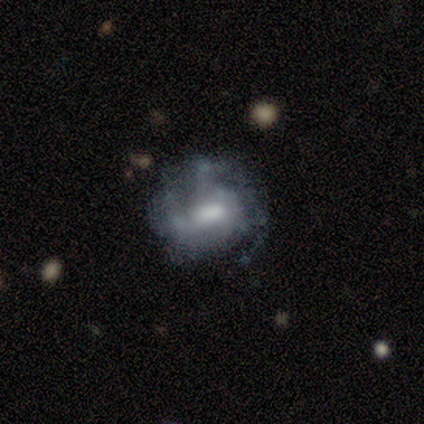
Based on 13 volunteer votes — smooth-or-featured: featured or disk: 62% | smooth: 38% | star or artifact: 0%
  disk-edge-on: no: 100% | yes: 0%
    bar: weak: 62% | strong: 25% | no: 12%
    has-spiral-arms: yes: 50% (tied) | no: 50% (tied)
      spiral-winding: medium: 75% | tight: 25% | loose: 0%
      spiral-arm-count: can't tell: 75% | 3: 25% | 1: 0% | 2: 0% | 4: 0% | more than 4: 0%
    bulge-size: large: 38% (tied) | moderate: 38% (tied) | small: 12% | none: 12% | dominant: 0%
  merging: none: 38% | minor disturbance: 31% | major disturbance: 31% | merger: 0%